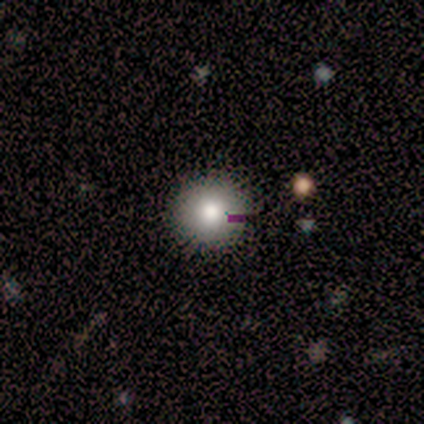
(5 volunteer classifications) smooth 80%, featured or disk 20%, star or artifact 0%. Down the decision tree: how rounded — round (100%); merging — none (80%).